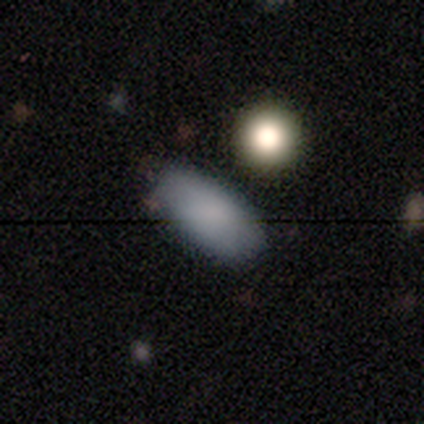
Morphology: type=smooth (79%); roundness=in between (100%); merging=none (82%).